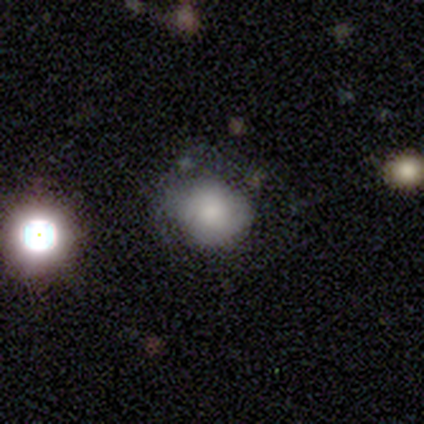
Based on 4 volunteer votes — Smooth or featured: smooth — 75% (featured or disk — 25%)
How rounded: round — 67% (in between — 33%)
Merging: none — 75% (minor disturbance — 25%)